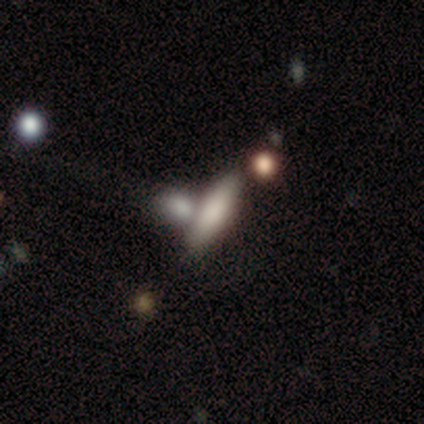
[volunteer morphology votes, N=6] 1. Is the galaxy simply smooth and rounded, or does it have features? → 67% smooth, 33% featured or disk, 0% star or artifact.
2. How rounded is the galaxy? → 75% cigar-shaped, 25% in between, 0% round.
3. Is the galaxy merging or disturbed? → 83% none, 17% merger, 0% minor disturbance, 0% major disturbance.